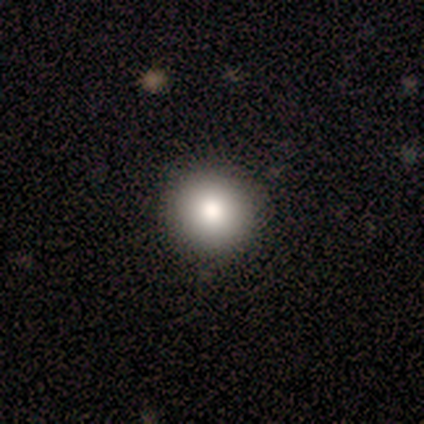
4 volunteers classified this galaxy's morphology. This appears to be a smooth galaxy with no disk features (100%) that is round (100%). Merging: none (100%).